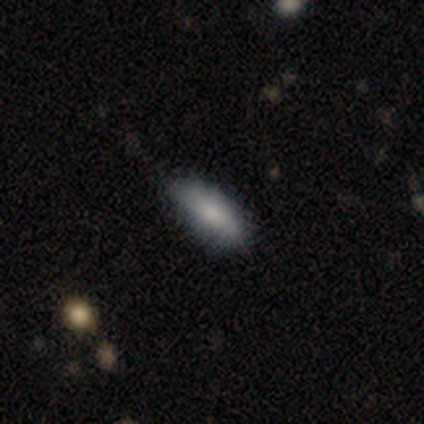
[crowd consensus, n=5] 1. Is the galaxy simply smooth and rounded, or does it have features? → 60% smooth, 20% featured or disk, 20% star or artifact.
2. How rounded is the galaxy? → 67% in between, 33% cigar-shaped, 0% round.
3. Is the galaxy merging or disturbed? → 75% none, 25% minor disturbance, 0% major disturbance, 0% merger.